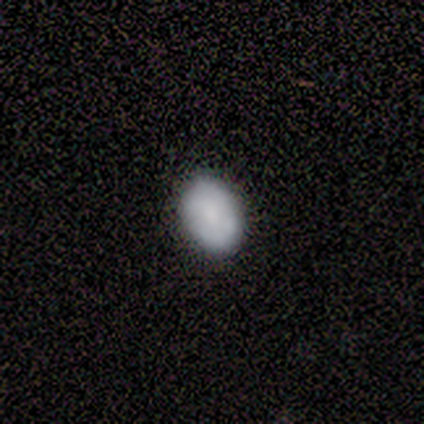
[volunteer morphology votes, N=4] Smooth or featured? 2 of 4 (50%, tied with featured or disk) said smooth. How rounded? 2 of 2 (100%) said in between. Merging? 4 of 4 (100%) said none.